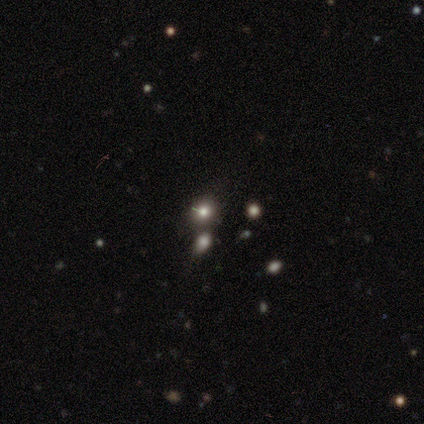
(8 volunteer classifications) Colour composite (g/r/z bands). It shows a smooth galaxy with no disk features (50%) that is round (50%, tied with in between). Merging: minor disturbance (40%, tied with merger).